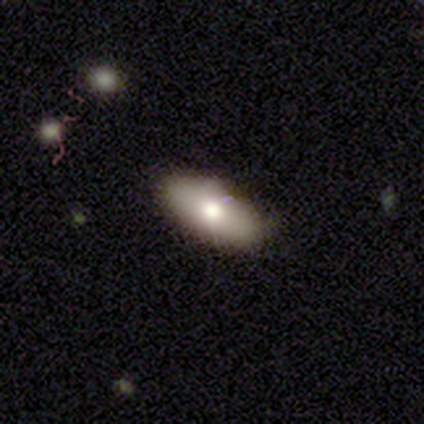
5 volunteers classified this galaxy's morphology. This appears to be a smooth galaxy with no disk features (100%) that is in between round and cigar-shaped (100%). Merging: none (100%).